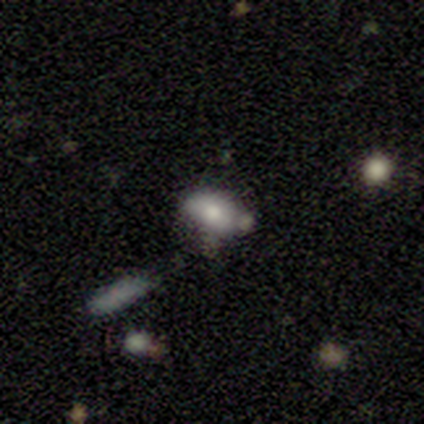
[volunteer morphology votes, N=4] smooth_or_featured: smooth (p=0.50) [tied with: featured or disk p=0.50]
how_rounded: in between (p=1.00)
merging: none (p=1.00)